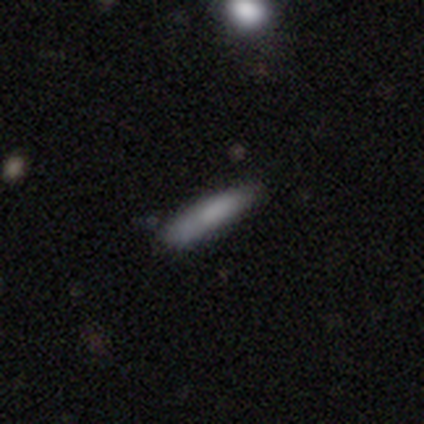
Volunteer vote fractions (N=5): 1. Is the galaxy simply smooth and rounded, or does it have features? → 60% smooth, 40% featured or disk, 0% star or artifact.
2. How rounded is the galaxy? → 67% cigar-shaped, 33% in between, 0% round.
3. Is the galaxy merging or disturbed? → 80% none, 20% minor disturbance, 0% major disturbance, 0% merger.